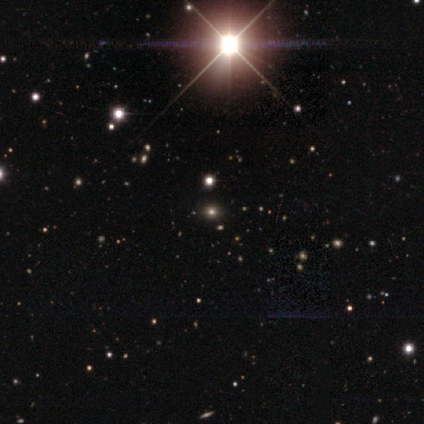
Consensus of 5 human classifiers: A smooth galaxy with no disk features (60%) that is round (67%). Merging: none (100%).